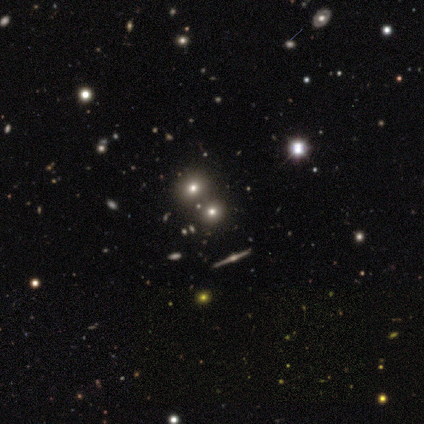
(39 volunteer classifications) smooth 46%, star or artifact 38%, featured or disk 15%. Down the decision tree: how rounded — round (78%); merging — none (67%).